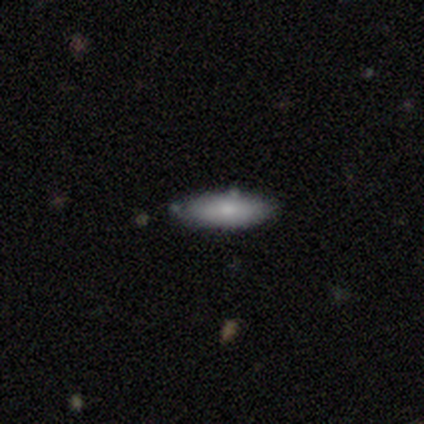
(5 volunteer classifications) smooth 100%, featured or disk 0%, star or artifact 0%. Down the decision tree: how rounded — in between (60%); merging — none (100%).